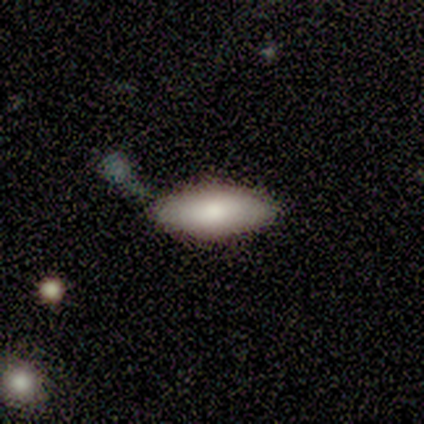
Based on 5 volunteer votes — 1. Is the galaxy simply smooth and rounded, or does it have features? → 80% smooth, 20% featured or disk, 0% star or artifact.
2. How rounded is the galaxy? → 75% in between, 25% cigar-shaped, 0% round.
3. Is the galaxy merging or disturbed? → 80% none, 20% merger, 0% minor disturbance, 0% major disturbance.